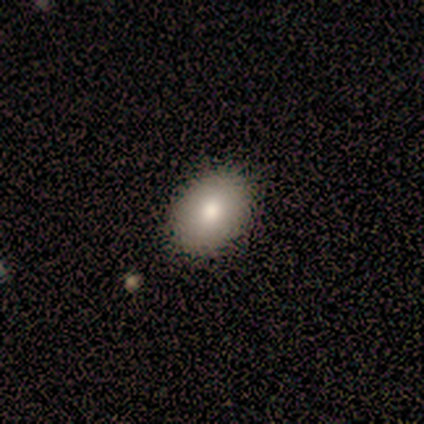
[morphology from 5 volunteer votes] smooth-or-featured: smooth: 100% | featured or disk: 0% | star or artifact: 0%
  how-rounded: in between: 100% | round: 0% | cigar-shaped: 0%
  merging: none: 80% | minor disturbance: 20% | major disturbance: 0% | merger: 0%